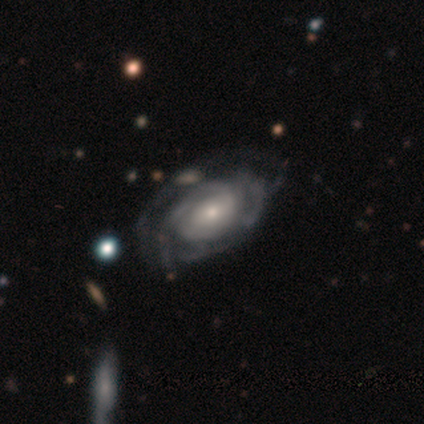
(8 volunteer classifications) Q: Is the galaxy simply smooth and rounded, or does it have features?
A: featured or disk — 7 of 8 (88%).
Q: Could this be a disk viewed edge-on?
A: no — 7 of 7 (100%).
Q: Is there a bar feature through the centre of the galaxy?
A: no — 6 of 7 (86%).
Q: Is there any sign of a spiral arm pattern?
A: yes — 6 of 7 (86%).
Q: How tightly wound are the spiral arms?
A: tight — 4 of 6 (67%).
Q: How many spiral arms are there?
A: can't tell — 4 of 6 (67%).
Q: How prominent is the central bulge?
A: small — 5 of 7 (71%).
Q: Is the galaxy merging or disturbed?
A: none — 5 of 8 (62%).